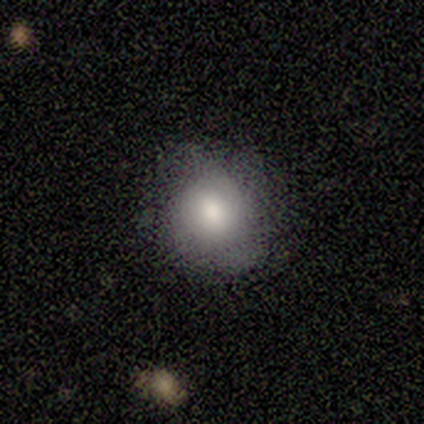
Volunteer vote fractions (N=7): A smooth galaxy with no disk features (100%) that is round (86%). Merging: none (86%).